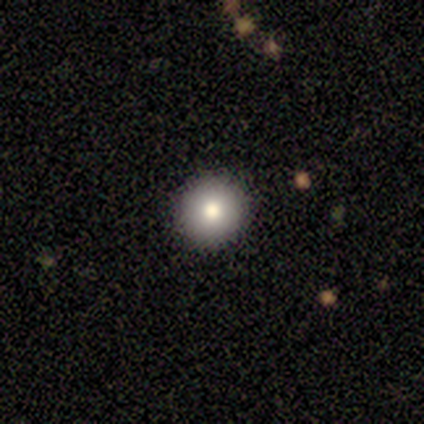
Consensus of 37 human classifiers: Volunteers were most divided on "smooth or featured": smooth: 78%, featured or disk: 11%, star or artifact: 11%. More confident: merging — none (97%); how rounded — round (97%).